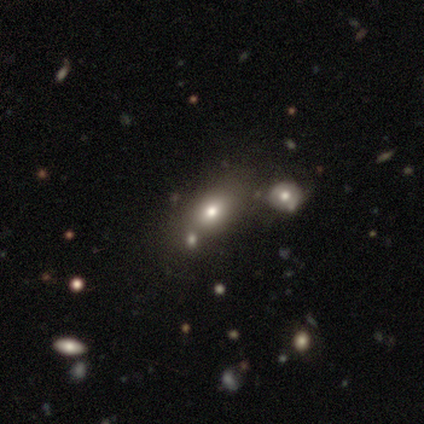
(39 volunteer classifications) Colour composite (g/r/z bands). It shows a smooth galaxy with no disk features (74%) that is in between round and cigar-shaped (72%). Merging: none (33%).